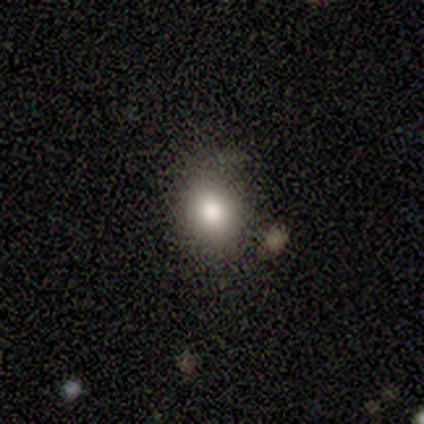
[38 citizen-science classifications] smooth_or_featured: smooth (p=0.84) [alt: star or artifact p=0.11]
how_rounded: round (p=0.56) [alt: in between p=0.44]
merging: none (p=0.82) [alt: minor disturbance p=0.15]